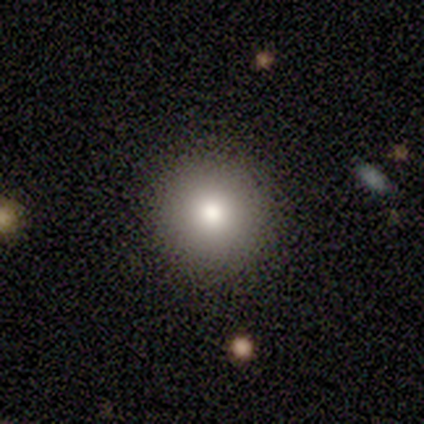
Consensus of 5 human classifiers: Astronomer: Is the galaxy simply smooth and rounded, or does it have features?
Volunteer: smooth — 60%.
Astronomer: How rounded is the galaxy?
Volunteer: round — 67%.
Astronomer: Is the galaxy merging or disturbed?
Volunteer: none — 100%.